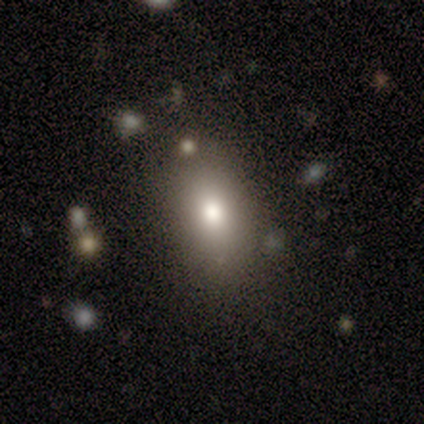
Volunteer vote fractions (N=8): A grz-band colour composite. It shows a smooth galaxy with no disk features (75%) that is in between round and cigar-shaped (83%). Merging: none (62%).